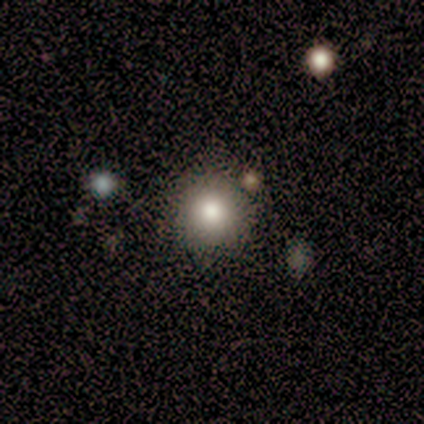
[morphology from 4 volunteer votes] smooth 75%, star or artifact 25%, featured or disk 0%. Down the decision tree: how rounded — round (100%); merging — none (100%).